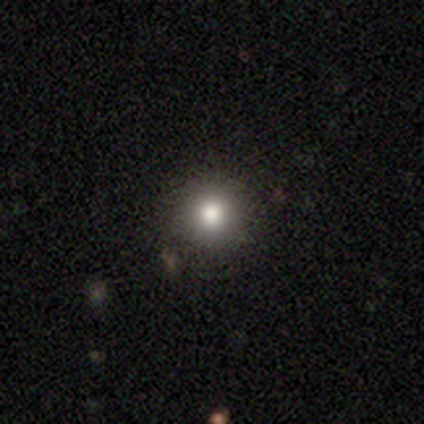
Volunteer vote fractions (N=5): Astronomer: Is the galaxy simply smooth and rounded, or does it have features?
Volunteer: smooth — 100%.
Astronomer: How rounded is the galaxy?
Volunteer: round — 100%.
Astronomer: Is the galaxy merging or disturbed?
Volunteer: none — 100%.